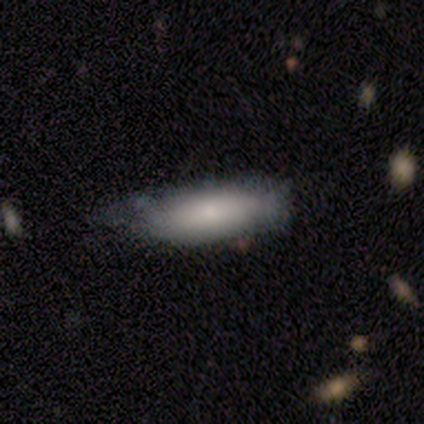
Smooth or featured: smooth — 100%
How rounded: in between — 80% (cigar-shaped — 20%)
Merging: minor disturbance — 80% (major disturbance — 20%)